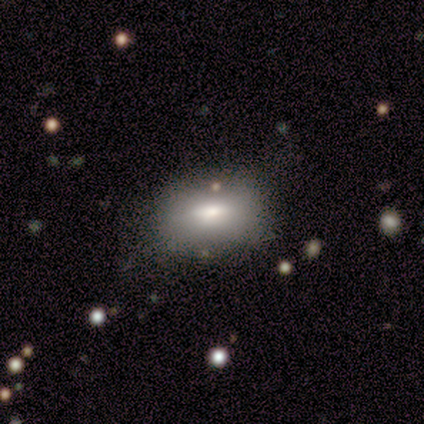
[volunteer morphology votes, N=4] Q: Smooth or featured?
A: smooth (50%); tied with: featured or disk (50%)
Q: How rounded?
A: in between (100%)
Q: Merging?
A: none (50%); runner-up: minor disturbance (25%)